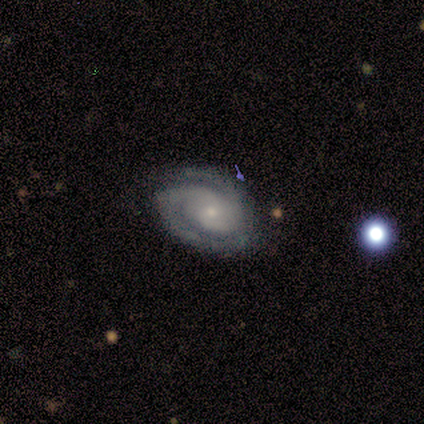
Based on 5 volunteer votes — Smooth or featured? 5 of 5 (100%) said featured or disk. Edge-on disk? 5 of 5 (100%) said no. Bar? 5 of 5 (100%) said no. Spiral arms? 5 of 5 (100%) said yes. Spiral winding? 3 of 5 (60%) said medium. Spiral arm count? 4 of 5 (80%) said 2. Bulge size? 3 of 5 (60%) said small. Merging? 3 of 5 (60%) said none.